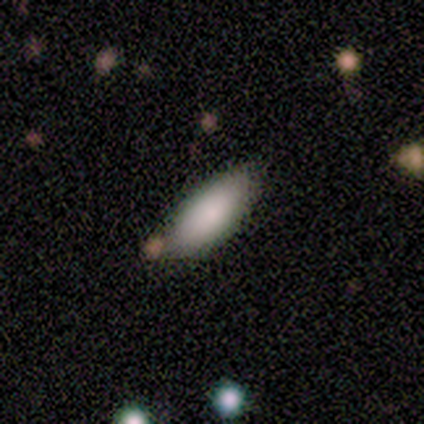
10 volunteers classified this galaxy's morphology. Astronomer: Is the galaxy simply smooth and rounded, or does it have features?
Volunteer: smooth — 90%.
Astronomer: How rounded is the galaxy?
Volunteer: in between — 100%.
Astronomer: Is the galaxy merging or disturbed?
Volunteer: none — 78%.